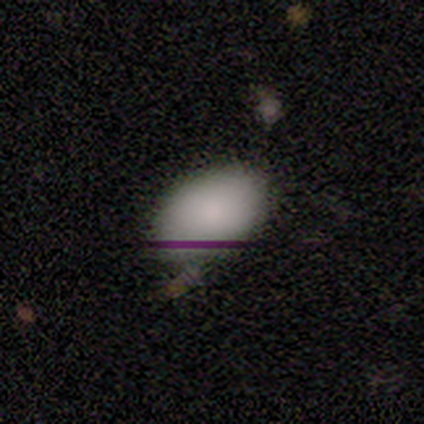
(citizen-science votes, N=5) smooth 100%, featured or disk 0%, star or artifact 0%. Down the decision tree: how rounded — in between (100%); merging — none (80%).